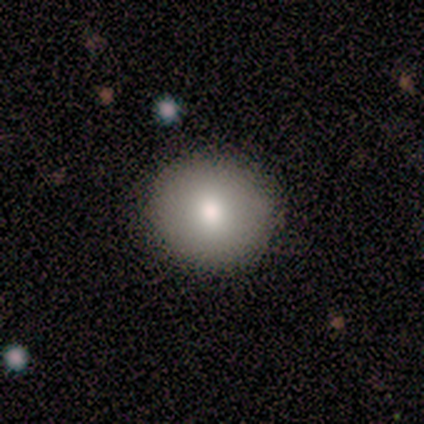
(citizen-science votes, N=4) Smooth or featured?
  - smooth: 100% *
  - featured or disk: 0%
  - star or artifact: 0%
How rounded?
  - round: 75% *
  - in between: 25%
  - cigar-shaped: 0%
Merging?
  - none: 100% *
  - minor disturbance: 0%
  - major disturbance: 0%
  - merger: 0%